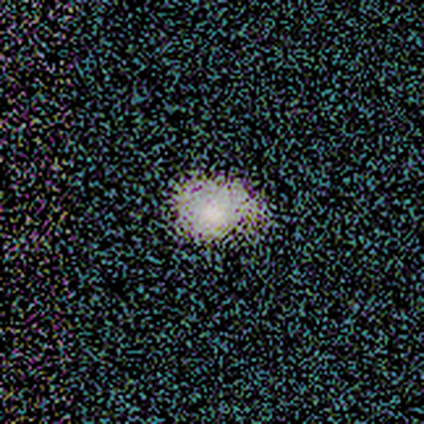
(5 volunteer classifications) A smooth galaxy with no disk features (80%) that is in between round and cigar-shaped (75%). Merging: none (50%).